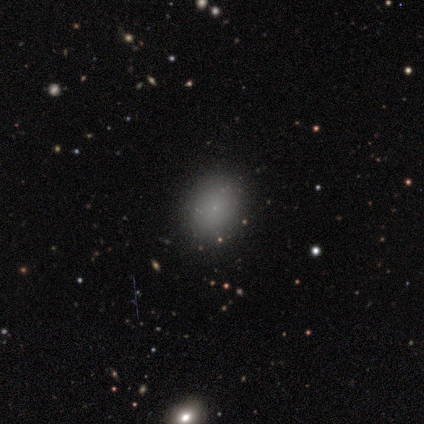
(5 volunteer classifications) smooth_or_featured: smooth (p=0.80) [alt: star or artifact p=0.20]
how_rounded: in between (p=0.75) [alt: round p=0.25]
merging: none (p=1.00)